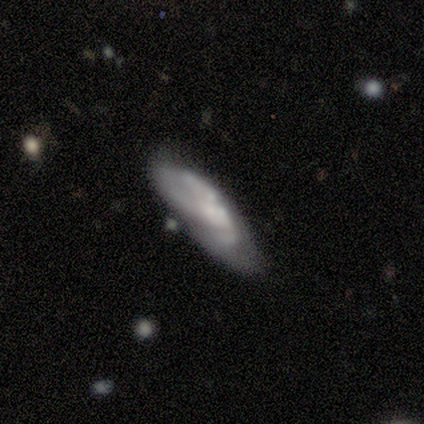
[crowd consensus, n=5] Smooth or featured? featured or disk (80%)
Edge-on disk? no (100%)
Bar? no (75%)
Spiral arms? yes (50%, tied with no)
Spiral winding? tight (50%, tied with loose)
Spiral arm count? 3 (100%)
Bulge size? moderate (50%)
Merging? none (40%)